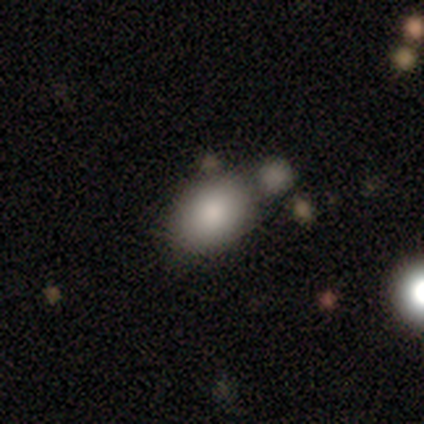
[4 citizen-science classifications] A smooth galaxy with no disk features (100%) that is in between round and cigar-shaped (100%).

Vote fractions:
- Smooth or featured? smooth: 100% / featured or disk: 0% / star or artifact: 0%
- How rounded? in between: 100% / round: 0% / cigar-shaped: 0%
- Merging? minor disturbance: 50% / none: 25% / merger: 25% / major disturbance: 0%